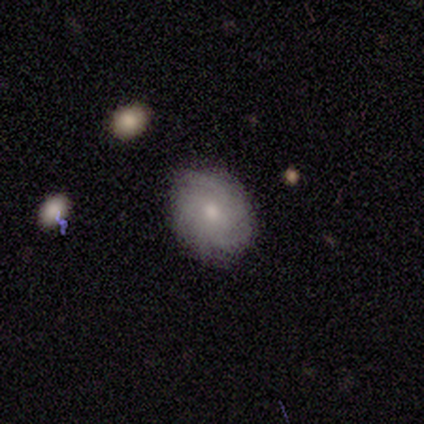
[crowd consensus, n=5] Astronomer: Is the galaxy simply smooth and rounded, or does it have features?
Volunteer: smooth — 60% (runner-up: featured or disk, 40%).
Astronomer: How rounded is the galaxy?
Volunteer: in between — 67%.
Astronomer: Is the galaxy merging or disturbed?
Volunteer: none — 60%.